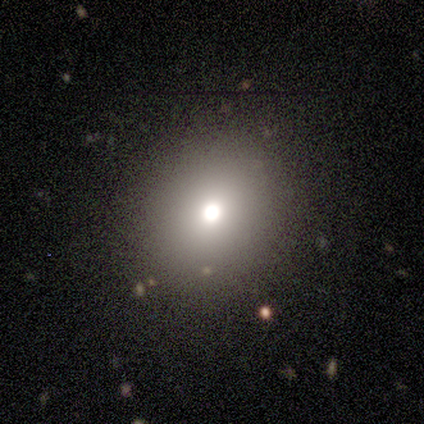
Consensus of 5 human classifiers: Smooth or featured?
  - star or artifact: 80% *
  - featured or disk: 20%
  - smooth: 0%